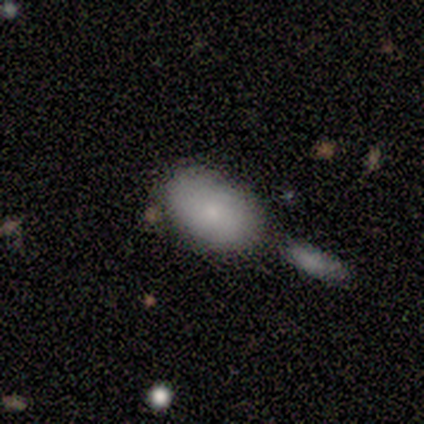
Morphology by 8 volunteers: type=smooth (88%); roundness=in between (86%); merging=none (38%).